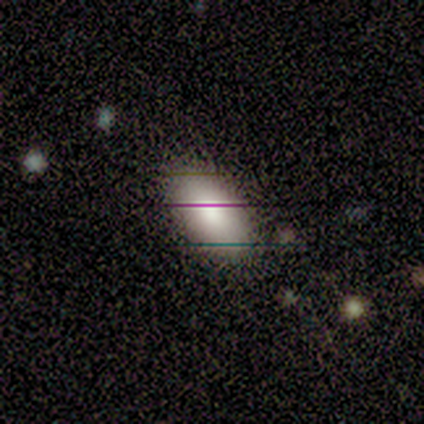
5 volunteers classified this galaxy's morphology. A smooth galaxy with no disk features (60%) that is in between round and cigar-shaped (100%). Merging: none (67%).